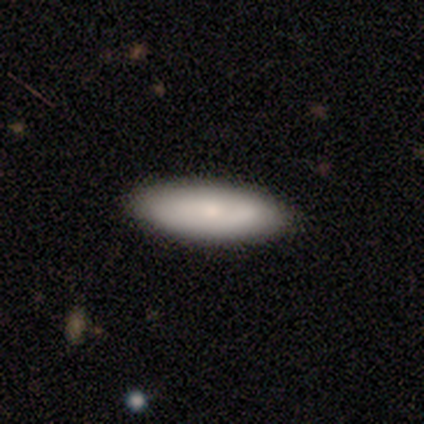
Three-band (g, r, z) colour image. It shows a smooth galaxy with no disk features (80%) that is in between round and cigar-shaped (100%). Merging: none (100%).